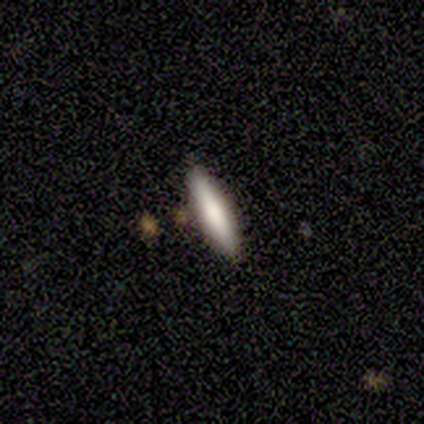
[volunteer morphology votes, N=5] Overall: smooth (60%; featured or disk 40%). How rounded: cigar-shaped (100%). Merging: none (80%).